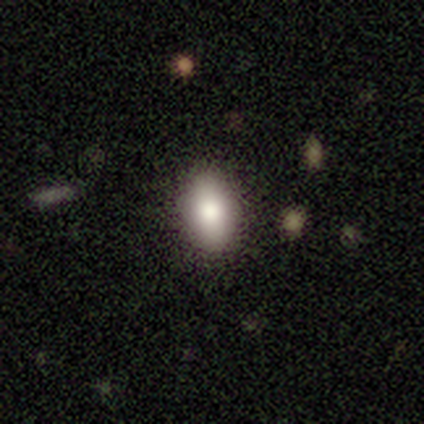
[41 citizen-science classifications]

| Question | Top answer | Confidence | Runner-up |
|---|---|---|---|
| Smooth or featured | smooth | 83% | featured or disk (17%) |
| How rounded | in between | 85% | round (12%) |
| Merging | none | 95% | minor disturbance (2%) |